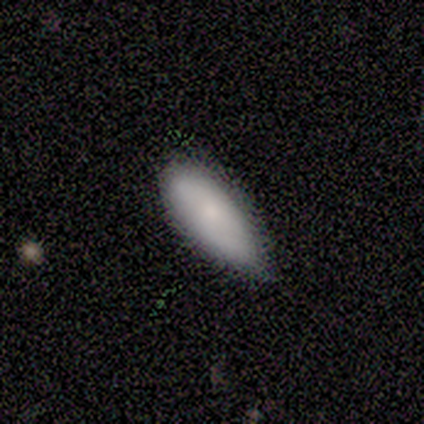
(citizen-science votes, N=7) Volunteers were most divided on "merging": none: 57%, minor disturbance: 43%, major disturbance: 0%, merger: 0%. More confident: smooth or featured — smooth (100%); how rounded — in between (86%).